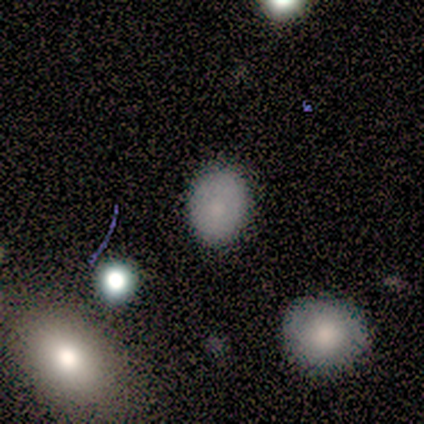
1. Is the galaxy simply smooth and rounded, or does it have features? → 60% smooth, 20% featured or disk, 20% star or artifact.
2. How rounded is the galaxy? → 67% round, 33% in between, 0% cigar-shaped.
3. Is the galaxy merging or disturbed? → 75% none, 25% minor disturbance, 0% major disturbance, 0% merger.